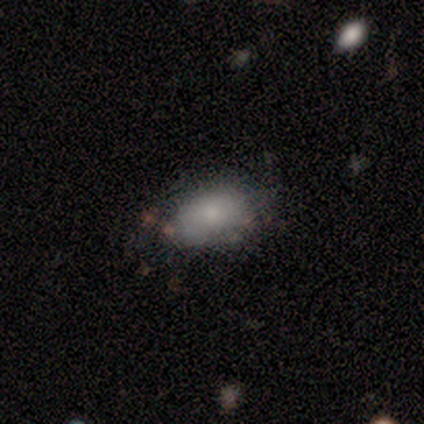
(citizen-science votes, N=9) This appears to be a smooth galaxy with no disk features (89%) that is in between round and cigar-shaped (88%). Merging: none (56%).